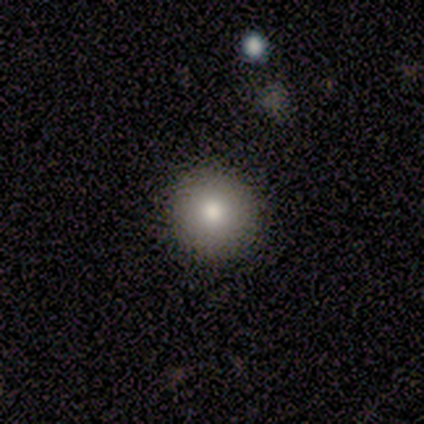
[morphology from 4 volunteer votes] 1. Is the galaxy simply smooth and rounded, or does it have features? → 50% smooth, 25% featured or disk, 25% star or artifact.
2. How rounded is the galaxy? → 100% round, 0% in between, 0% cigar-shaped.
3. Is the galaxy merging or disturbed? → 100% none, 0% minor disturbance, 0% major disturbance, 0% merger.